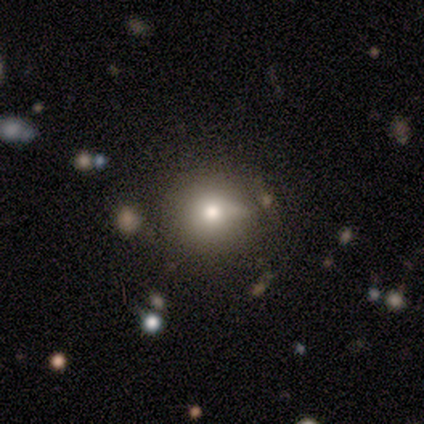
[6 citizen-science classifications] This appears to be a smooth galaxy with no disk features (33%, tied with featured or disk and star or artifact) that is round (100%). Merging: none (50%).